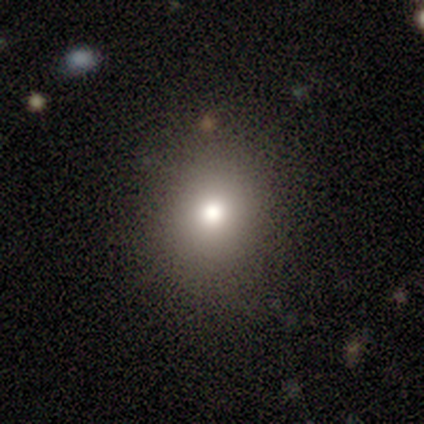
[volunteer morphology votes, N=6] smooth-or-featured: smooth: 100% | featured or disk: 0% | star or artifact: 0%
  how-rounded: round: 67% | in between: 33% | cigar-shaped: 0%
  merging: none: 83% | minor disturbance: 17% | major disturbance: 0% | merger: 0%